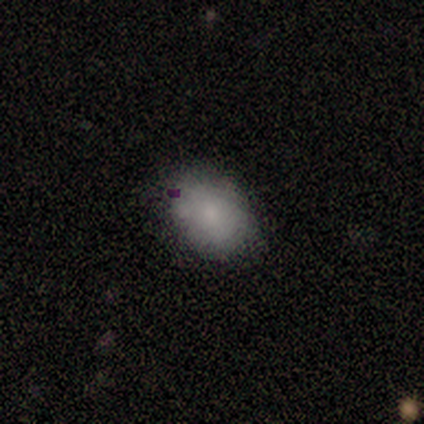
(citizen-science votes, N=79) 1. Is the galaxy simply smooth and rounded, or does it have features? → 85% smooth, 8% featured or disk, 8% star or artifact.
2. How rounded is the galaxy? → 75% in between, 24% round, 1% cigar-shaped.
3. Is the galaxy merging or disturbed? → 42% none, 15% minor disturbance, 4% merger, 1% major disturbance.